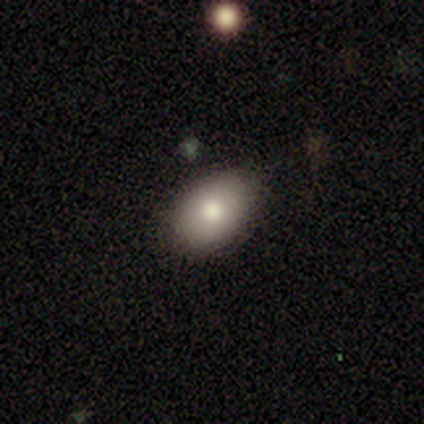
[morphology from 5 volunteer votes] smooth_or_featured: smooth (p=1.00)
how_rounded: in between (p=0.80) [alt: round p=0.20]
merging: none (p=0.80) [alt: minor disturbance p=0.20]